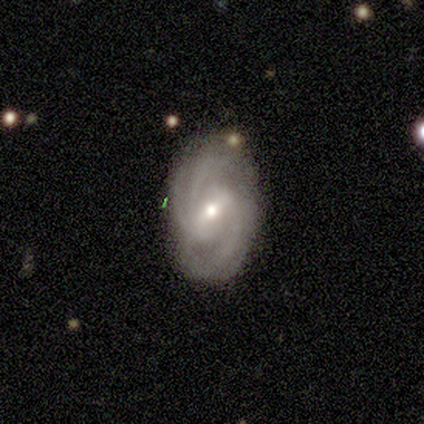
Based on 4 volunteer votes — Overall: featured or disk (100%). Edge-on disk: no (100%). Bar: weak (50%; strong 25%). Spiral arms: yes (100%). Spiral arm count: 2 (50%; 3 25%). Spiral winding: tight (100%). Bulge size: moderate (50%, tied with small). Merging: none (100%).